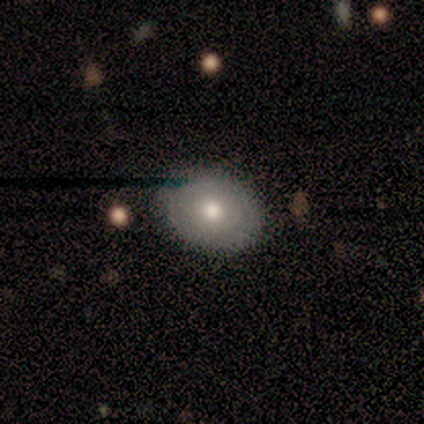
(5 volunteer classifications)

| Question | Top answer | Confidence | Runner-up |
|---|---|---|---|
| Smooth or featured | smooth | 40% | tied: featured or disk (40%) |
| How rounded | in between | 100% | — |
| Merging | none | 75% | minor disturbance (25%) |